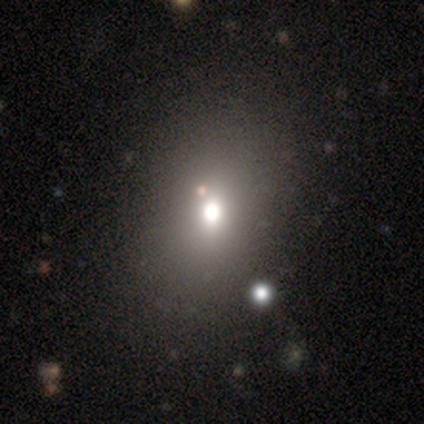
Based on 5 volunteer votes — Morphology: type=smooth (60%); roundness=round (67%); merging=none (67%).